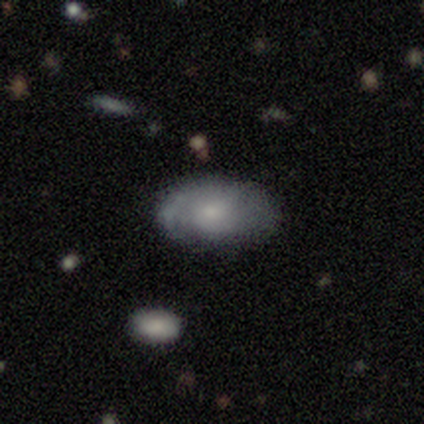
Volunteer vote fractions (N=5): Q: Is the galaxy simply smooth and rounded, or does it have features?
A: smooth — 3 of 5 (60%).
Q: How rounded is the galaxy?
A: in between — 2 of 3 (67%).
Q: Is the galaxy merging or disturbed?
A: none — 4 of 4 (100%).